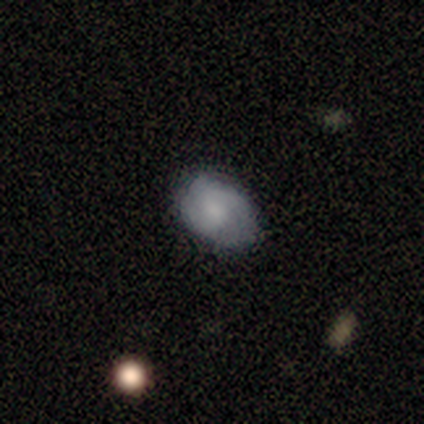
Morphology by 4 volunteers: smooth 50% (tied), featured or disk 50% (tied), star or artifact 0%. Down the decision tree: how rounded — in between (100%); merging — none (75%).